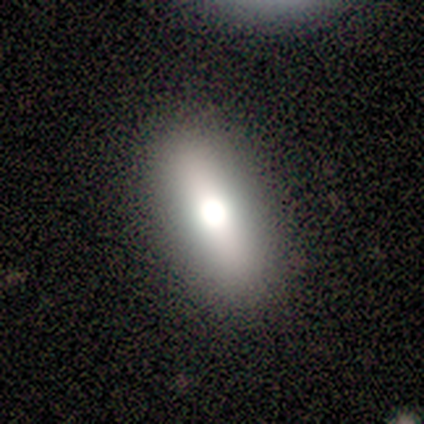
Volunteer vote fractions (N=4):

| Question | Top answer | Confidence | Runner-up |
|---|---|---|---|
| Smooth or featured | smooth | 50% | tied: featured or disk (50%) |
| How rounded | in between | 50% | tied: cigar-shaped (50%) |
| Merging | none | 100% | — |